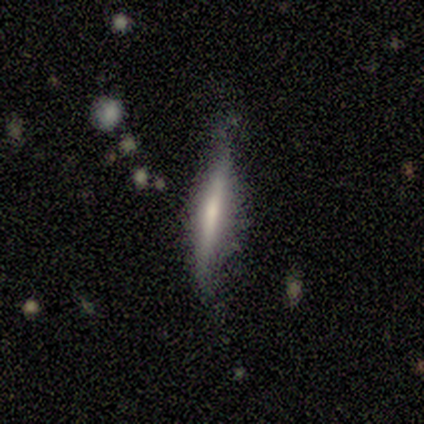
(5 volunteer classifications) A smooth galaxy with no disk features (60%) that is cigar-shaped (67%). Merging: none (60%).